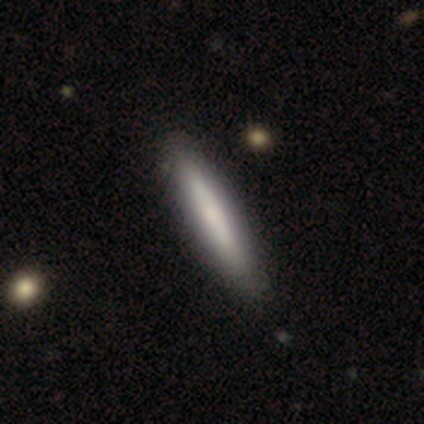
This is likely a smooth galaxy (74%). How rounded: clearly cigar-shaped (90%). Merging: likely none (62%).